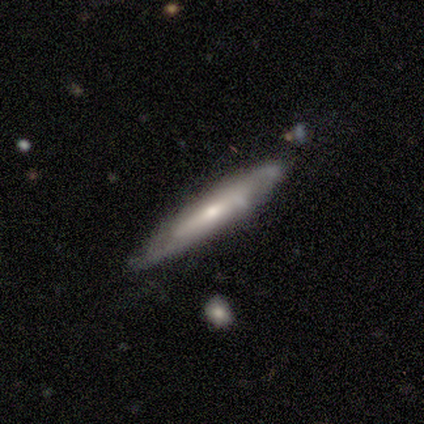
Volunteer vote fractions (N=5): A featured or disk galaxy (100%) viewed edge-on (60%) with a rounded central bulge (67%). Merging: none (80%).